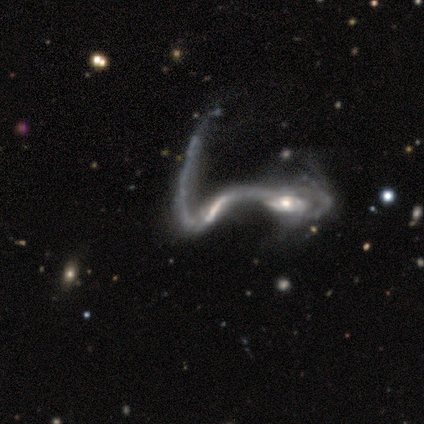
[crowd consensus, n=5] This appears to be a featured or disk galaxy (100%) with no bar (80%), no spiral arms (60%) and a moderate central bulge (40%, tied with small). Merging: merger (100%).